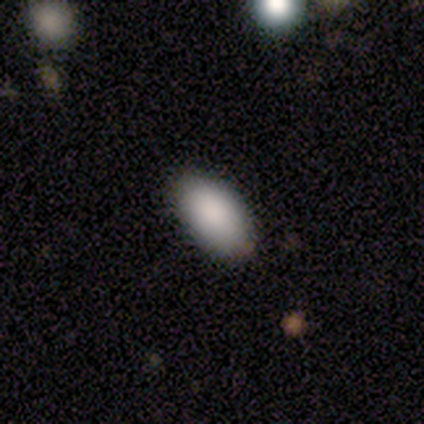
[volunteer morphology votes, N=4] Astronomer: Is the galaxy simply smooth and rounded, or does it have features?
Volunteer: smooth — 75%.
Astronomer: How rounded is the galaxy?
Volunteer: in between — 100%.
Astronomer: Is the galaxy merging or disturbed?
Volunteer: none — 75%.